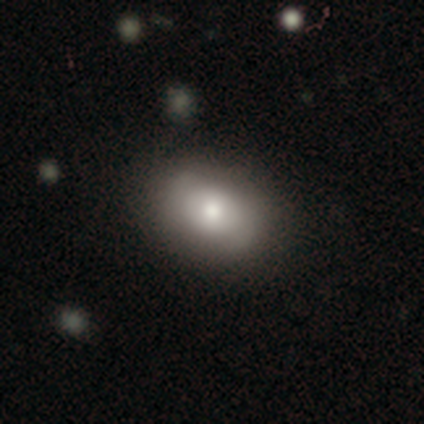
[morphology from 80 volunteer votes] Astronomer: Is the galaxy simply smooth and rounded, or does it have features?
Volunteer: smooth — 72%.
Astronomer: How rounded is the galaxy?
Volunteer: in between — 81%.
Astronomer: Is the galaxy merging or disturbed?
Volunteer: none — 41%.